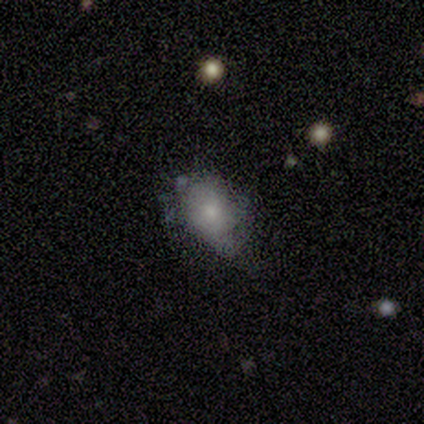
Smooth or featured?
  - smooth: 67% *
  - featured or disk: 33%
  - star or artifact: 0%
How rounded?
  - in between: 100% *
  - round: 0%
  - cigar-shaped: 0%
Merging?
  - none: 67% *
  - minor disturbance: 33%
  - major disturbance: 0%
  - merger: 0%